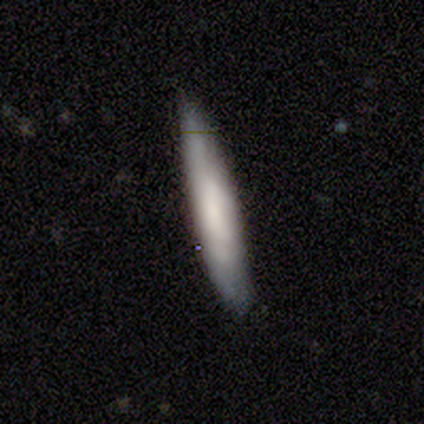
Smooth or featured: smooth — 75% (featured or disk — 25%)
How rounded: cigar-shaped — 100%
Merging: none — 75% (major disturbance — 25%)